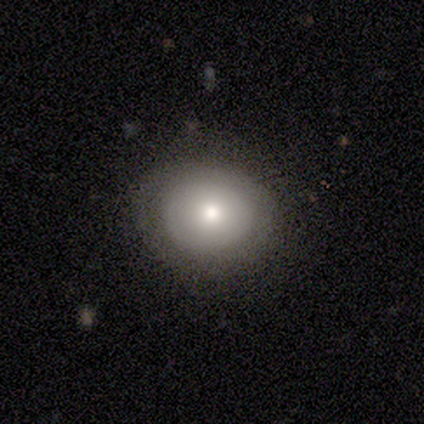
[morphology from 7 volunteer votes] This is clearly a smooth galaxy (86%). How rounded: clearly round (100%). Merging: clearly none (100%).